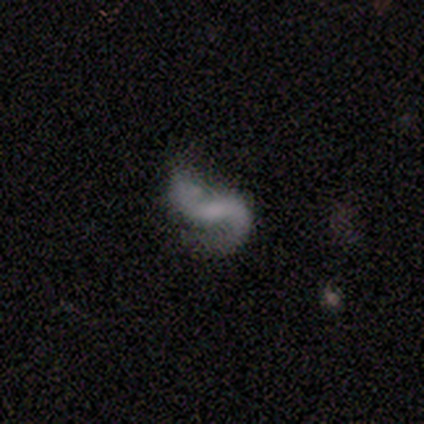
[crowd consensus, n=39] featured or disk 82%, smooth 13%, star or artifact 5%. Down the decision tree: edge-on disk — no (97%); bar — weak (48%); spiral arms — yes (97%); spiral arm count — 2 (90%); spiral winding — loose (60%); bulge size — none (65%); merging — none (46%).